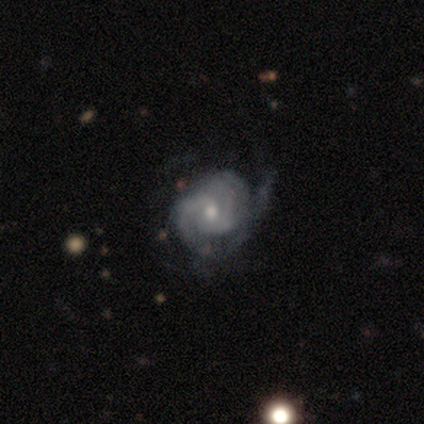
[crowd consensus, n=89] A featured or disk galaxy (85%) with no bar (63%), tight (59%) spiral arms (97%) and a moderate central bulge (57%).

Vote fractions:
- Smooth or featured? featured or disk: 85% / smooth: 12% / star or artifact: 2%
- Edge-on disk? no: 100% / yes: 0%
- Bar? no: 63% / weak: 33% / strong: 4%
- Spiral arms? yes: 97% / no: 3%
- Spiral winding? tight: 59% / medium: 32% / loose: 8%
- Spiral arm count? can't tell: 34% / 2: 31% / 3: 24% / 1: 5% / 4: 4% / more than 4: 1%
- Bulge size? moderate: 57% / small: 41% / large: 1% / none: 1% / dominant: 0%
- Merging? none: 49% / minor disturbance: 29% / major disturbance: 21% / merger: 1%